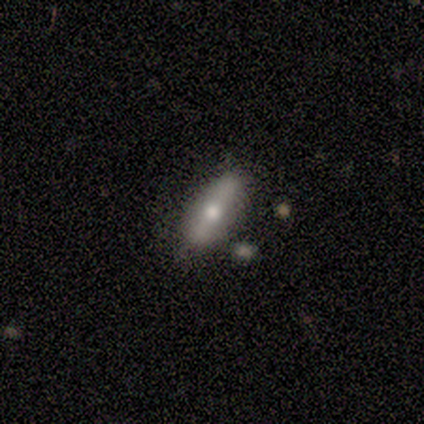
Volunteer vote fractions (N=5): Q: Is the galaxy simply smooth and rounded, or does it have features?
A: smooth — 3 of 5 (60%).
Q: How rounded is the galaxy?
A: cigar-shaped — 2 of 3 (67%).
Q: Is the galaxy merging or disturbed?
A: none — 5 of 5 (100%).